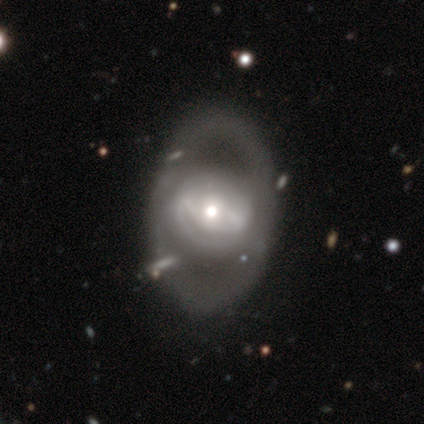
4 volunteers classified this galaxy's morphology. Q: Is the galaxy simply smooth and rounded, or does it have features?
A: featured or disk — 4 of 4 (100%).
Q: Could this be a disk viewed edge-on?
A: no — 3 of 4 (75%).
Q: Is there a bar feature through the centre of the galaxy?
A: weak — 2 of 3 (67%).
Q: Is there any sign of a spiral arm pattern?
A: yes — 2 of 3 (67%).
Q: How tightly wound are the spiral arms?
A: medium — 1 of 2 (50%, tied with loose).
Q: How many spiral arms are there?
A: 1 — 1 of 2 (50%, tied with 2).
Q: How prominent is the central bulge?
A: small — 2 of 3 (67%).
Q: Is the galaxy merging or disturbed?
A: none — 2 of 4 (50%).